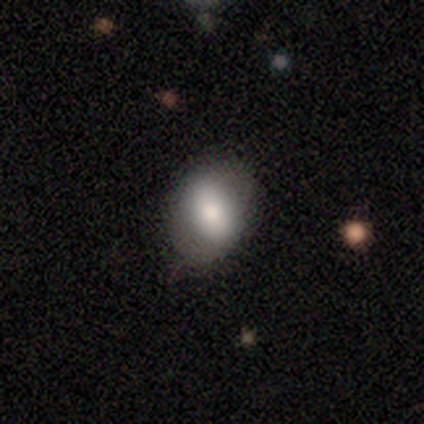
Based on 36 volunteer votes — Morphology: type=smooth (58%); roundness=in between (67%); merging=none (72%).